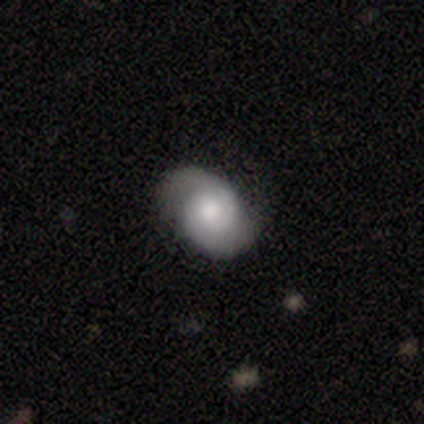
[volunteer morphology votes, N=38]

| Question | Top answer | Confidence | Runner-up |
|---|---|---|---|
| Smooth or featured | featured or disk | 63% | smooth (37%) |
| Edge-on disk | no | 96% | yes (4%) |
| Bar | no | 83% | weak (17%) |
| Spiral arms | yes | 96% | no (4%) |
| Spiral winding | tight | 50% | medium (32%) |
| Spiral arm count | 2 | 86% | 1 (5%) |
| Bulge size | moderate | 61% | large (22%) |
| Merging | none | 66% | minor disturbance (26%) |